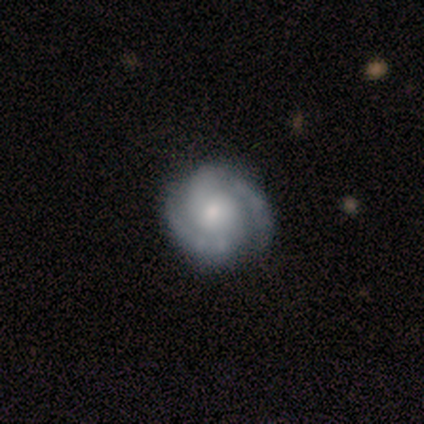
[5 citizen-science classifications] Smooth or featured? 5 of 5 (100%) said featured or disk. Edge-on disk? 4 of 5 (80%) said no. Bar? 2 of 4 (50%, tied with no) said weak. Spiral arms? 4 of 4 (100%) said yes. Spiral winding? 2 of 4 (50%) said tight. Spiral arm count? 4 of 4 (100%) said 2. Bulge size? 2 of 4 (50%) said moderate. Merging? 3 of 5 (60%) said none.